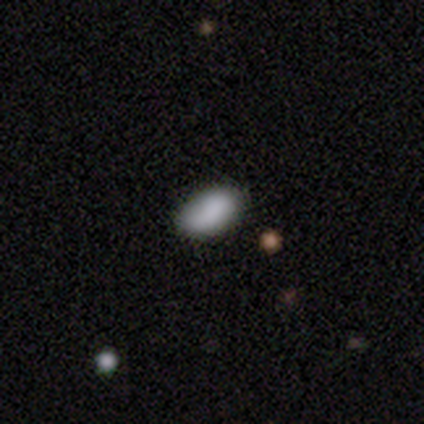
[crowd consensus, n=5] Smooth or featured? 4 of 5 (80%) said smooth. How rounded? 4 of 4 (100%) said in between. Merging? 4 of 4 (100%) said none.